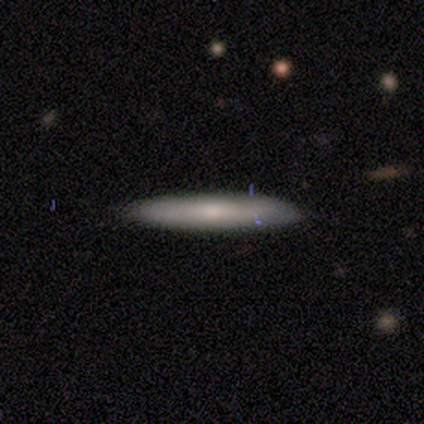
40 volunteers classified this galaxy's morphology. Q: Smooth or featured?
A: smooth (60%); runner-up: featured or disk (38%)
Q: How rounded?
A: cigar-shaped (92%); runner-up: in between (8%)
Q: Merging?
A: none (62%); runner-up: minor disturbance (5%)